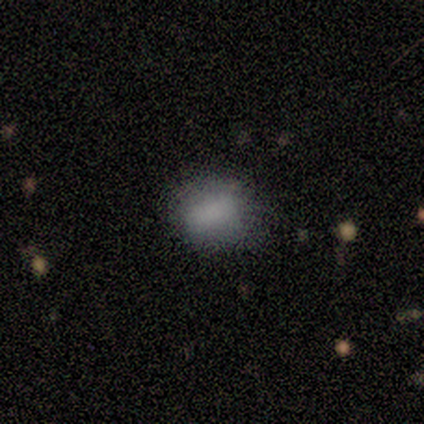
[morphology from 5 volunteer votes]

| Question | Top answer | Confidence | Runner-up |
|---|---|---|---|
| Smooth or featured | smooth | 80% | featured or disk (20%) |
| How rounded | round | 75% | in between (25%) |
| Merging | none | 60% | minor disturbance (40%) |